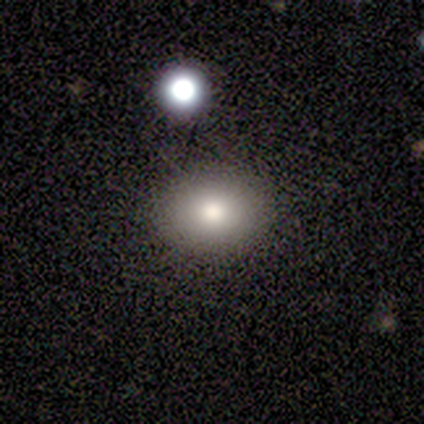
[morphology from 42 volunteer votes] This is likely a smooth galaxy (74%). How rounded: likely in between (71%). Merging: clearly none (85%).